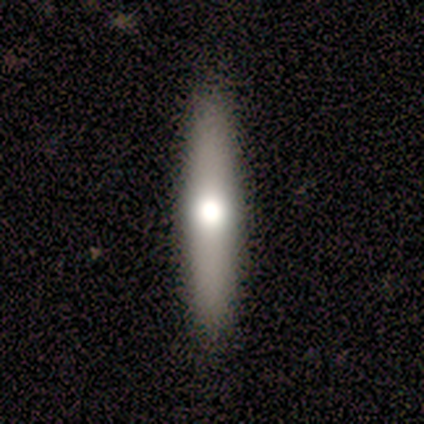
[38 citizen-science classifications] This is possibly a featured or disk galaxy (53%). It is clearly viewed edge-on (85%). Edge-on bulge: clearly rounded (88%). Merging: clearly none (87%).